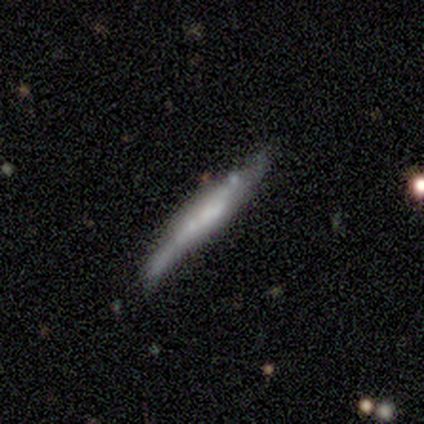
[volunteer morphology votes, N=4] This appears to be a smooth galaxy with no disk features (75%) that is cigar-shaped (100%). Merging: none (50%, tied with minor disturbance).